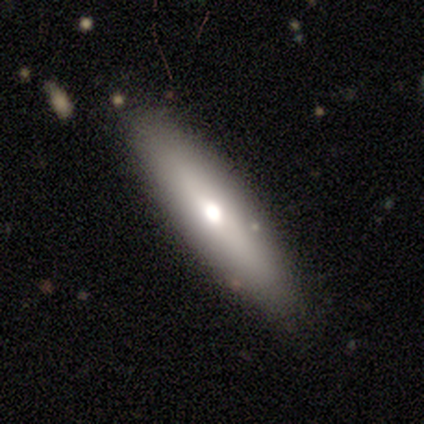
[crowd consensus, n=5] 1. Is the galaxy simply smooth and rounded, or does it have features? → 60% smooth, 40% featured or disk, 0% star or artifact.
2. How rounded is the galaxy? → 67% cigar-shaped, 33% in between, 0% round.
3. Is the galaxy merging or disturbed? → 100% none, 0% minor disturbance, 0% major disturbance, 0% merger.